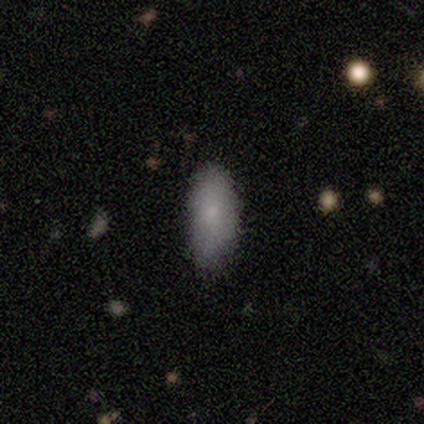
Volunteers were most divided on "merging": none: 67%, minor disturbance: 28%, major disturbance: 6%, merger: 0%. More confident: smooth or featured — smooth (89%); how rounded — in between (82%).